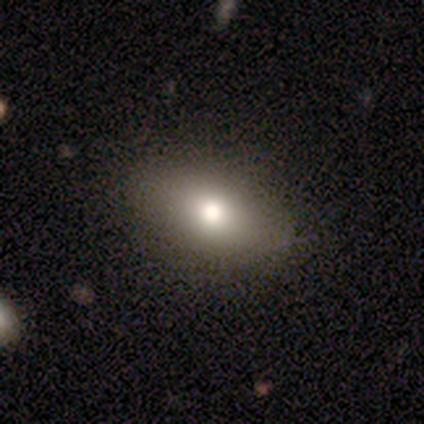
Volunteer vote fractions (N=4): Smooth or featured? smooth (75%)
How rounded? in between (67%)
Merging? none (67%)